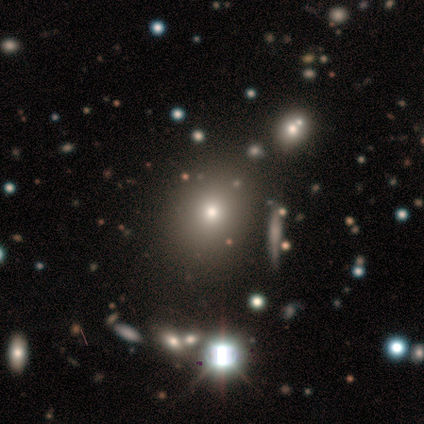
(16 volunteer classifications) Morphology: type=smooth (62%); roundness=round (70%); merging=none (73%).